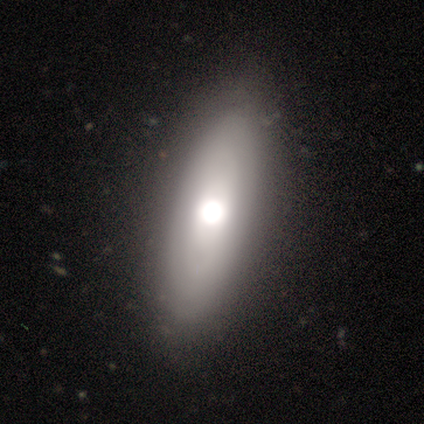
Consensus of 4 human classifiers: Q: Smooth or featured?
A: smooth (50%); tied with: featured or disk (50%)
Q: How rounded?
A: in between (100%)
Q: Merging?
A: none (75%); runner-up: minor disturbance (25%)